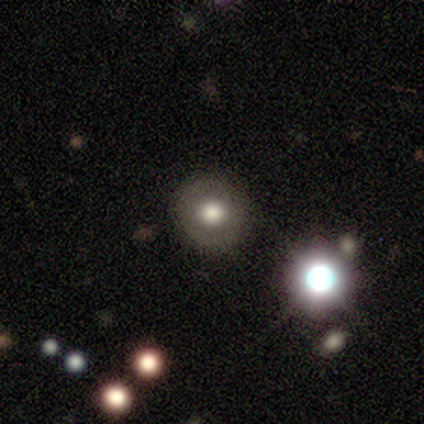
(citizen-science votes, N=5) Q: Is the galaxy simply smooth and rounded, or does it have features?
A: smooth — 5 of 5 (100%).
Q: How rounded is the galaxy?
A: round — 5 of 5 (100%).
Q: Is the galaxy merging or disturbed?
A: none — 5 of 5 (100%).